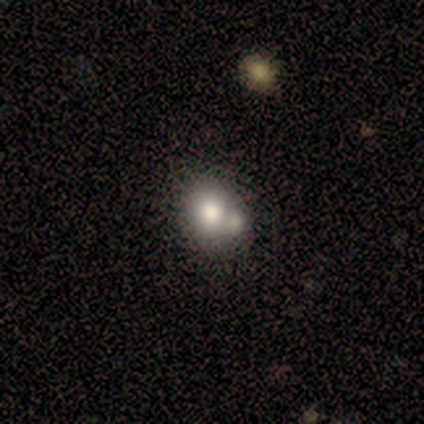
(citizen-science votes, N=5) Overall: smooth (100%). How rounded: round (80%). Merging: merger (80%).